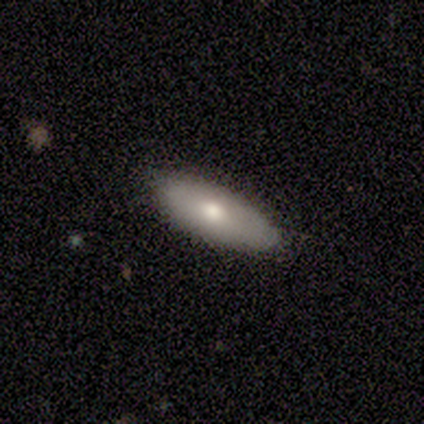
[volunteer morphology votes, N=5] This appears to be a smooth galaxy with no disk features (60%) that is in between round and cigar-shaped (67%). Merging: none (75%).